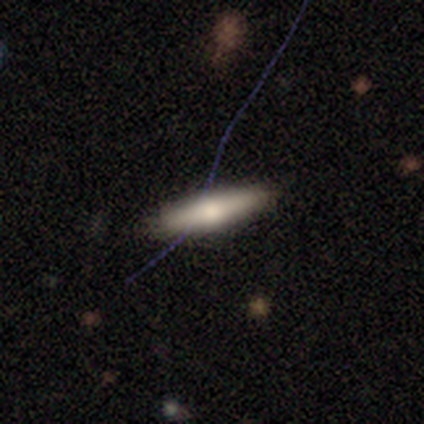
Smooth or featured? 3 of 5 (60%) said smooth. How rounded? 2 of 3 (67%) said cigar-shaped. Merging? 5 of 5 (100%) said none.